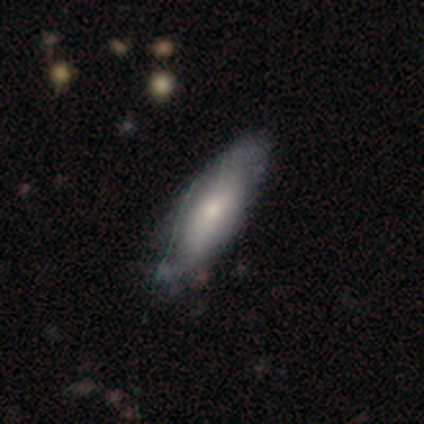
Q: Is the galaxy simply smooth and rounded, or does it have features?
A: smooth — 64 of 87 (74%).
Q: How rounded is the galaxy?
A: in between — 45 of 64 (70%).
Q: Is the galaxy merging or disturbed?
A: none — 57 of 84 (68%).